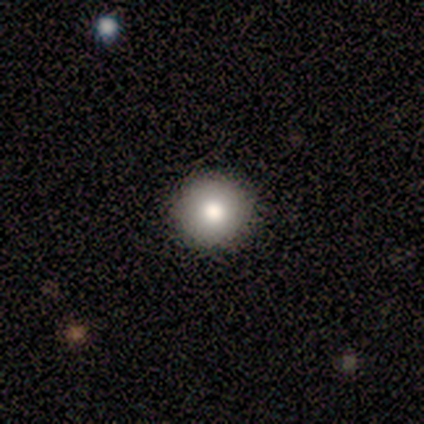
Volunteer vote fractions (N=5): Q: Smooth or featured?
A: smooth (80%); runner-up: star or artifact (20%)
Q: How rounded?
A: round (100%)
Q: Merging?
A: none (100%)